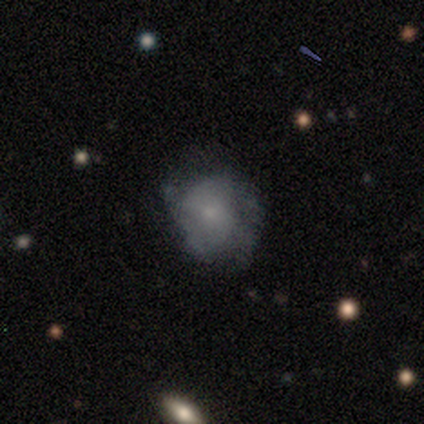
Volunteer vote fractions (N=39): This appears to be a featured or disk galaxy (49%) with no bar (84%), loose (45%) spiral arms (58%) and a small central bulge (58%). Merging: none (47%).